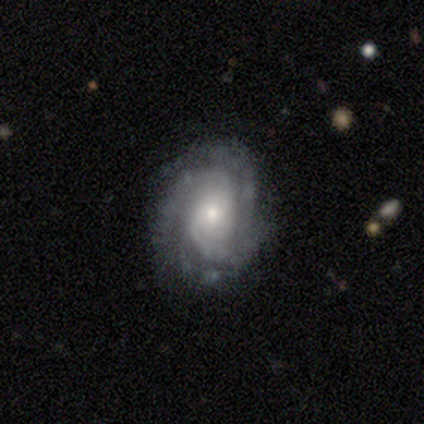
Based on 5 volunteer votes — Smooth or featured?
  - featured or disk: 100% *
  - smooth: 0%
  - star or artifact: 0%
Edge-on disk?
  - no: 100% *
  - yes: 0%
Bar?
  - no: 80% *
  - weak: 20%
  - strong: 0%
Spiral arms?
  - yes: 80% *
  - no: 20%
Spiral winding?
  - tight: 75% *
  - medium: 25%
  - loose: 0%
Spiral arm count?
  - 3: 50% * (tied)
  - 4: 50% * (tied)
  - 1: 0%
  - 2: 0%
  - more than 4: 0%
  - can't tell: 0%
Bulge size?
  - moderate: 40% * (tied)
  - small: 40% * (tied)
  - large: 20%
  - dominant: 0%
  - none: 0%
Merging?
  - none: 80% *
  - minor disturbance: 20%
  - major disturbance: 0%
  - merger: 0%